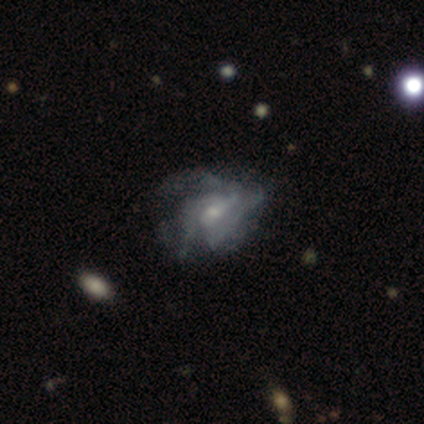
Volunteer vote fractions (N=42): This is clearly a featured or disk galaxy (88%). It is clearly not viewed edge-on (100%). Bar: possibly no (51%). Spiral arm pattern: likely yes (76%). Spiral arm count: possibly 3 (54%). Spiral winding: possibly tight (50%). Central bulge: likely small (76%). Merging: marginally none (23%, tied with major disturbance).